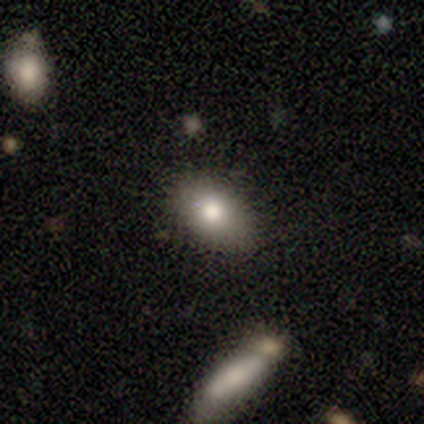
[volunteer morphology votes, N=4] Smooth or featured: smooth — 75% (featured or disk — 25%)
How rounded: in between — 67% (cigar-shaped — 33%)
Merging: none — 100%